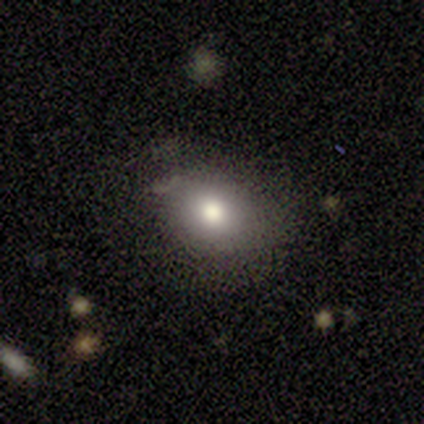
Q: Smooth or featured?
A: smooth (80%); runner-up: star or artifact (20%)
Q: How rounded?
A: round (75%); runner-up: in between (25%)
Q: Merging?
A: none (50%); tied with: minor disturbance (50%)